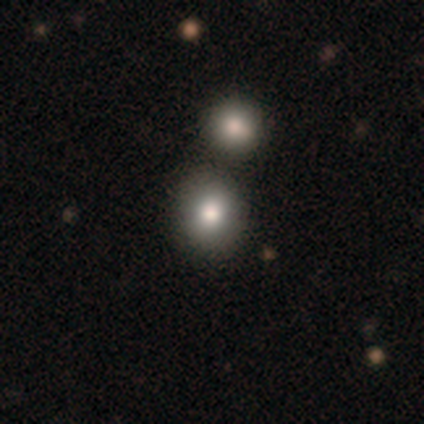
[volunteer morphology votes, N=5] smooth-or-featured: smooth: 100% | featured or disk: 0% | star or artifact: 0%
  how-rounded: round: 80% | in between: 20% | cigar-shaped: 0%
  merging: none: 60% | merger: 40% | minor disturbance: 0% | major disturbance: 0%